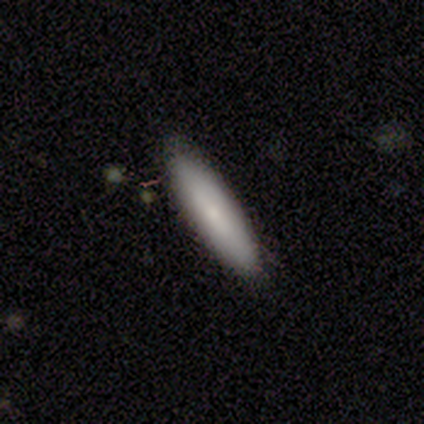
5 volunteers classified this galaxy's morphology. A smooth galaxy with no disk features (100%) that is cigar-shaped (60%). Merging: none (100%).